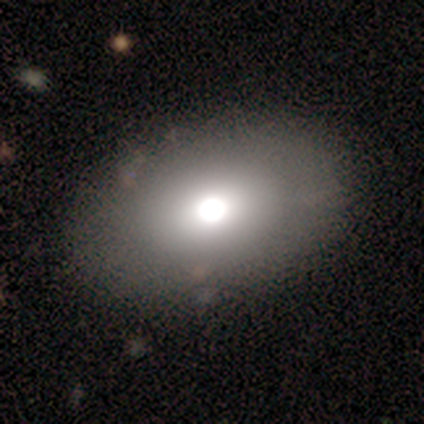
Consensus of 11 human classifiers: Q: Smooth or featured?
A: smooth (82%); runner-up: featured or disk (18%)
Q: How rounded?
A: in between (100%)
Q: Merging?
A: none (91%); runner-up: minor disturbance (9%)